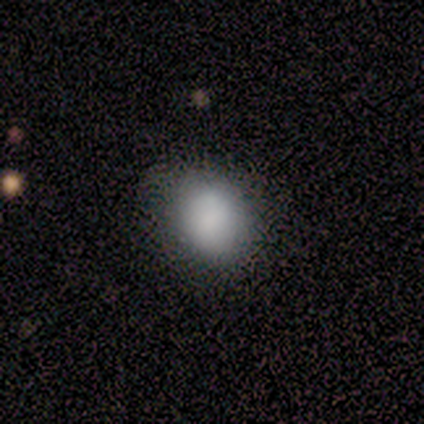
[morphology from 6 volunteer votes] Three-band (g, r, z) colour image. It shows a smooth galaxy with no disk features (100%) that is round (50%, tied with in between). Merging: none (67%).